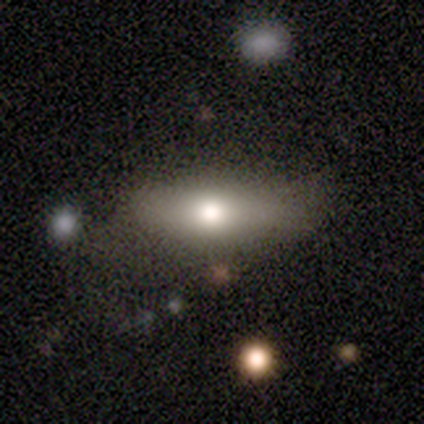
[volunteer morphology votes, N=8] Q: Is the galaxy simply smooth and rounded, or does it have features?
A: smooth — 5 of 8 (62%).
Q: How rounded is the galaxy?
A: in between — 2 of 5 (40%, tied with cigar-shaped).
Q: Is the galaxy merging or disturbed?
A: none — 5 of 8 (62%).